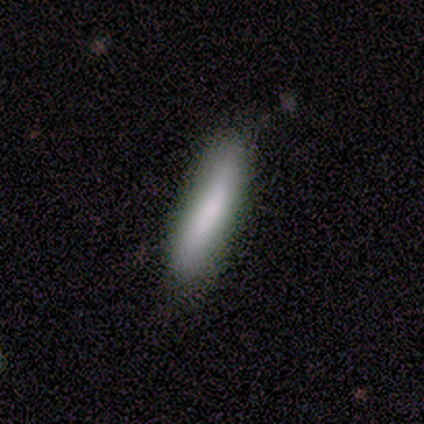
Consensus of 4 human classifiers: This appears to be a smooth galaxy with no disk features (100%) that is cigar-shaped (100%). Merging: none (100%).